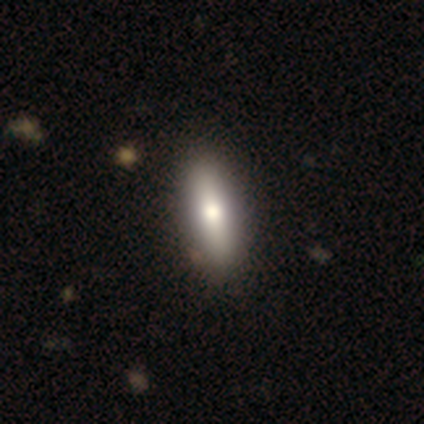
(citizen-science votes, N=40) Smooth or featured: smooth — 72% (featured or disk — 25%)
How rounded: in between — 59% (cigar-shaped — 38%)
Merging: none — 69%